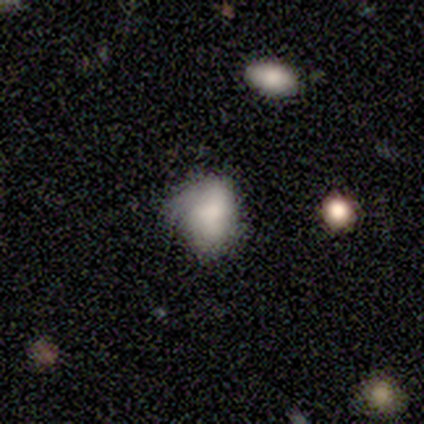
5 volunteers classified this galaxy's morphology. This is marginally a smooth galaxy (40%, tied with featured or disk). How rounded: clearly in between (100%). Merging: possibly minor disturbance (50%).